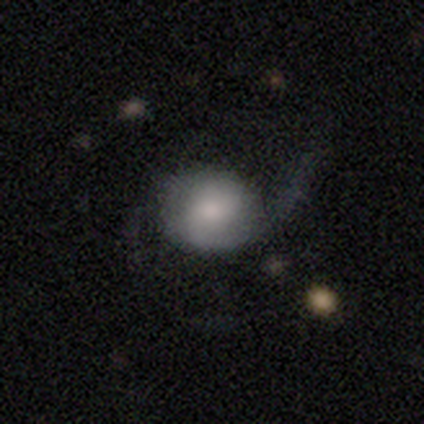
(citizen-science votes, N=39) Overall: featured or disk (69%). Edge-on disk: no (96%). Bar: no (54%; weak 35%). Spiral arms: yes (96%). Spiral arm count: 2 (64%). Spiral winding: loose (56%; medium 28%). Bulge size: moderate (31%, tied with small). Merging: major disturbance (39%; none 37%).